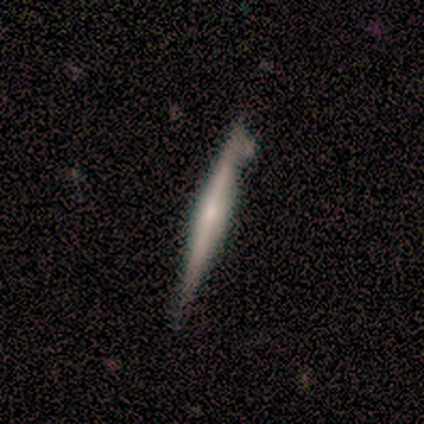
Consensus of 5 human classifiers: featured or disk 100%, smooth 0%, star or artifact 0%. Down the decision tree: edge-on disk — yes (100%); edge-on bulge — none (60%); merging — none (80%).